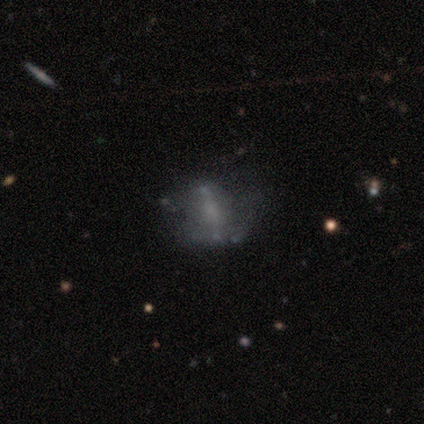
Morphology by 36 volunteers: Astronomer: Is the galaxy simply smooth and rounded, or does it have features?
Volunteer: featured or disk — 53% (runner-up: smooth, 33%).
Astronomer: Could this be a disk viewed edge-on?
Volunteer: no — 84%.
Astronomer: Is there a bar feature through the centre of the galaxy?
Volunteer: no — 62%.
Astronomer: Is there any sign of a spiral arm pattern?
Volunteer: no — 100%.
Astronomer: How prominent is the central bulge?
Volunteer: none — 50% (runner-up: small, 31%).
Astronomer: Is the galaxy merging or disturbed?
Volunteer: none — 61%.